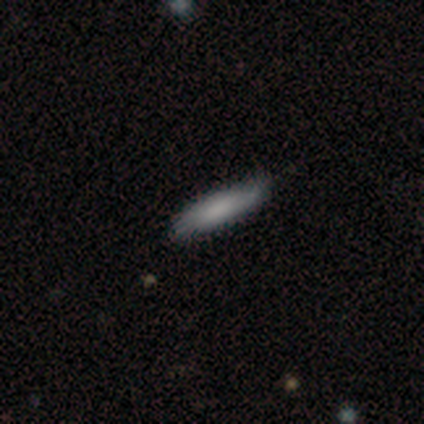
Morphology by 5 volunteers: This appears to be a smooth galaxy with no disk features (60%) that is cigar-shaped (67%). Merging: none (100%).